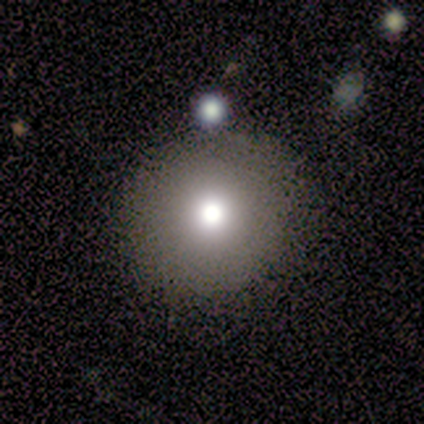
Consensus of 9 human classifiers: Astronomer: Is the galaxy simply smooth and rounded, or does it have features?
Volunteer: smooth — 89%.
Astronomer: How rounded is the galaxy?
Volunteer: round — 100%.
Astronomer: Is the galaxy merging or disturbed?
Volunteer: none — 88%.